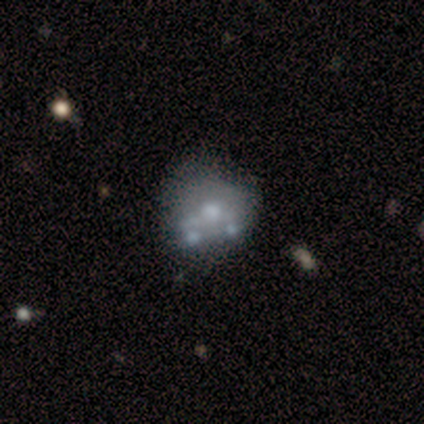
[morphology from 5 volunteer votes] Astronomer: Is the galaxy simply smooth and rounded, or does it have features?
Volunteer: featured or disk — 60% (runner-up: smooth, 40%).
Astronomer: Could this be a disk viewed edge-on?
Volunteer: no — 100%.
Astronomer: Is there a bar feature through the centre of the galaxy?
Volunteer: no — 100%.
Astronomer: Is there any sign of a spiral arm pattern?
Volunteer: no — 100%.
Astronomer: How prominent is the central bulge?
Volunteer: moderate — 67%.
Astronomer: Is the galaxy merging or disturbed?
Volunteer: none — 40%, tied with minor disturbance at 40%.